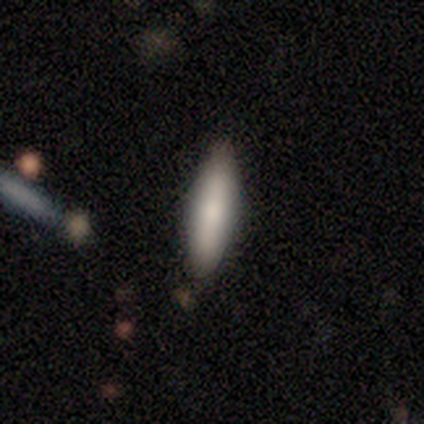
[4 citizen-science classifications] This is likely a smooth galaxy (75%). How rounded: likely in between (67%). Merging: likely none (75%).